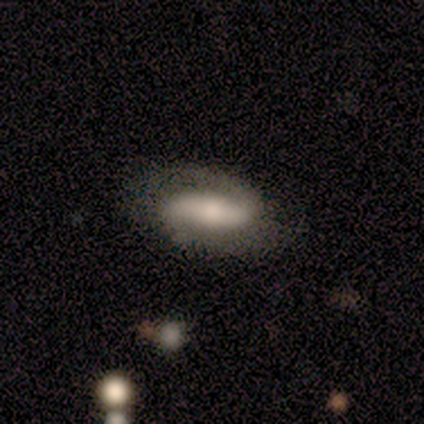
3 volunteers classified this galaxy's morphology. Smooth or featured?
  - featured or disk: 100% *
  - smooth: 0%
  - star or artifact: 0%
Edge-on disk?
  - no: 100% *
  - yes: 0%
Bar?
  - no: 67% *
  - strong: 33%
  - weak: 0%
Spiral arms?
  - yes: 100% *
  - no: 0%
Spiral winding?
  - loose: 67% *
  - medium: 33%
  - tight: 0%
Spiral arm count?
  - 2: 100% *
  - 1: 0%
  - 3: 0%
  - 4: 0%
  - more than 4: 0%
  - can't tell: 0%
Bulge size?
  - moderate: 67% *
  - small: 33%
  - dominant: 0%
  - large: 0%
  - none: 0%
Merging?
  - none: 100% *
  - minor disturbance: 0%
  - major disturbance: 0%
  - merger: 0%